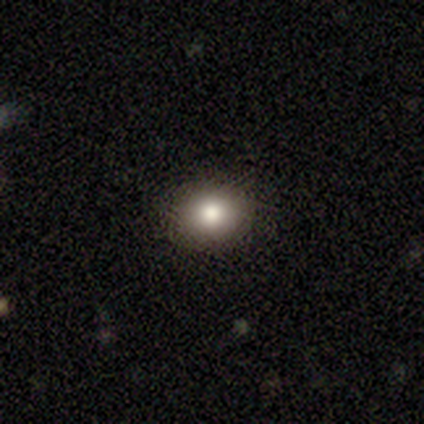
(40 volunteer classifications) Smooth or featured: smooth — 70% (star or artifact — 18%)
How rounded: round — 54% (in between — 43%)
Merging: none — 94% (minor disturbance — 6%)